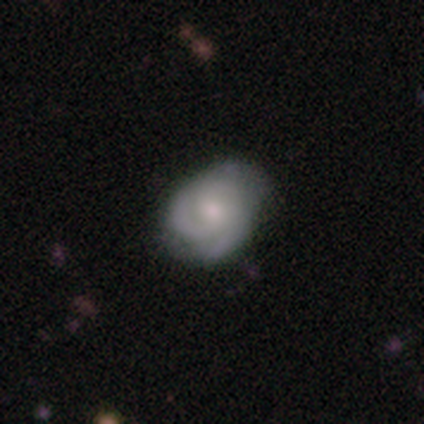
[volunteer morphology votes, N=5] Smooth or featured: featured or disk — 60% (smooth — 40%)
Edge-on disk: no — 100%
Bar: weak — 67% (no — 33%)
Spiral arms: yes — 100%
Spiral winding: tight — 33% (tied with medium — 33%; loose — 33%)
Spiral arm count: 3 — 100%
Bulge size: moderate — 100%
Merging: none — 80% (minor disturbance — 20%)